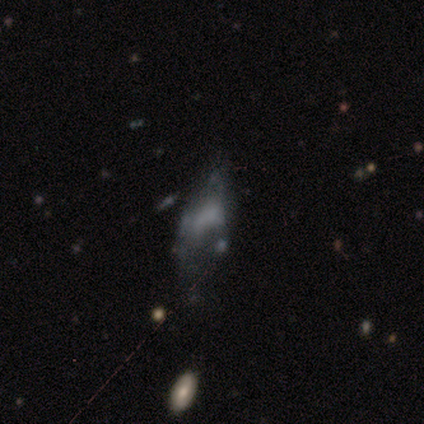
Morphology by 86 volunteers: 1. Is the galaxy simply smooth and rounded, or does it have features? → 55% featured or disk, 24% smooth, 21% star or artifact.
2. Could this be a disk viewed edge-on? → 98% no, 2% yes.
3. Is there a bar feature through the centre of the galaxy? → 80% no, 13% weak, 7% strong.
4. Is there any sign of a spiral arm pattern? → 85% no, 15% yes.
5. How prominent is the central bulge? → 74% none, 11% moderate, 11% small, 2% dominant, 2% large.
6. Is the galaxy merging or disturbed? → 47% major disturbance, 22% minor disturbance, 19% none, 12% merger.